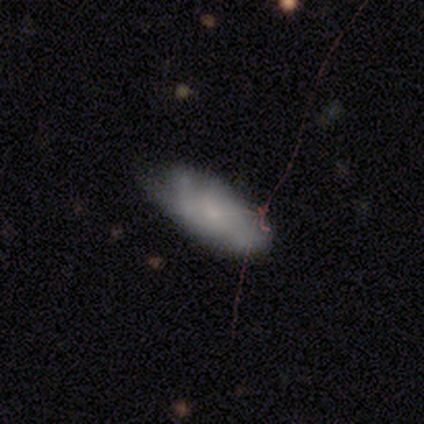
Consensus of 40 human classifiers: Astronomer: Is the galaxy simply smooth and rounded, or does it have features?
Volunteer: smooth — 52% (runner-up: featured or disk, 40%).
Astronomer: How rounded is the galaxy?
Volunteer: in between — 86%.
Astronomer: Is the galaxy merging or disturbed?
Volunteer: none — 51% (runner-up: minor disturbance, 30%).